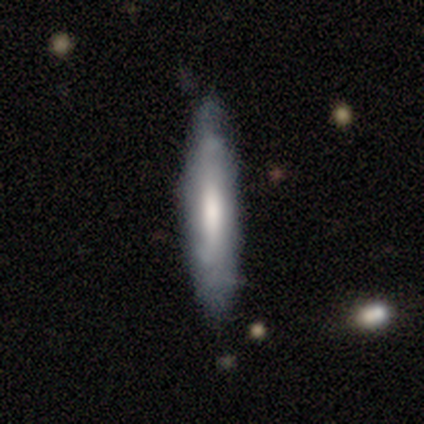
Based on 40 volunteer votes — smooth 52%, featured or disk 45%, star or artifact 2%. Down the decision tree: how rounded — cigar-shaped (95%); merging — none (72%).